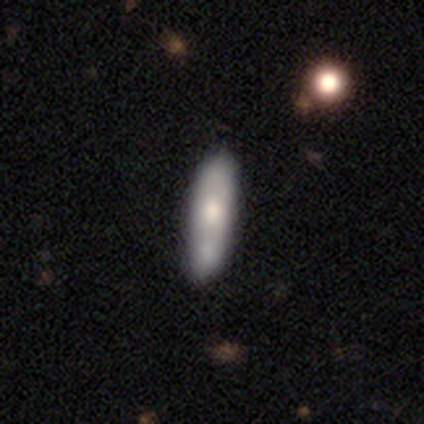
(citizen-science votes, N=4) smooth 50% (tied), featured or disk 50% (tied), star or artifact 0%. Down the decision tree: how rounded — cigar-shaped (100%); merging — none (100%).